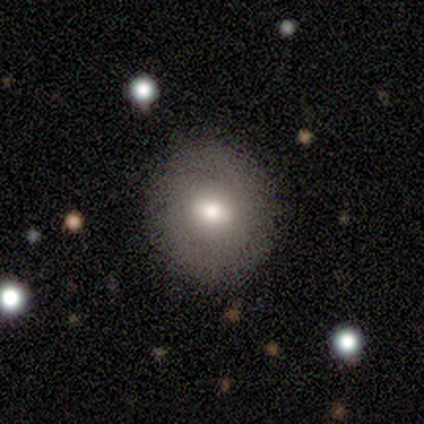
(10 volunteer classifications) Volunteers were most divided on "smooth or featured": smooth: 60%, featured or disk: 40%, star or artifact: 0%. More confident: how rounded — round (83%); merging — none (60%).